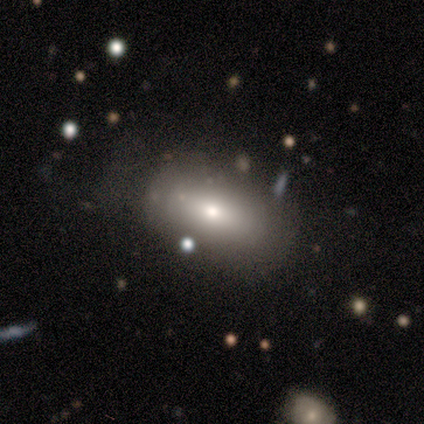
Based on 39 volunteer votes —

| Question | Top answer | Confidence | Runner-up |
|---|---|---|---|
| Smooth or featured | smooth | 79% | featured or disk (18%) |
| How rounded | in between | 97% | round (3%) |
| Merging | none | 66% | minor disturbance (24%) |